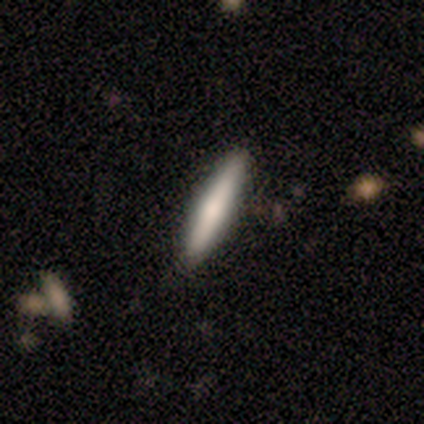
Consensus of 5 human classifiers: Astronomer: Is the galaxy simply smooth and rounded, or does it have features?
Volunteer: smooth — 60% (runner-up: featured or disk, 40%).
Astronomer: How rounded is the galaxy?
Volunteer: cigar-shaped — 100%.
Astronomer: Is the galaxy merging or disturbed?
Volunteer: none — 100%.